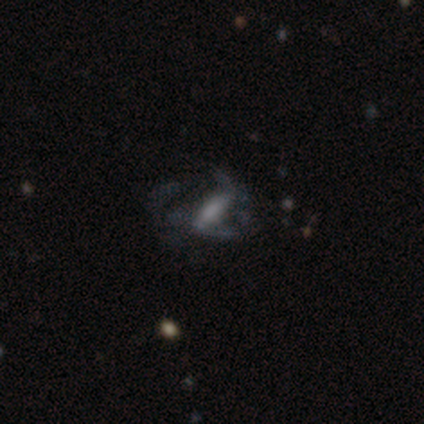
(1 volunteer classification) A featured or disk galaxy (100%) with a strong bar (100%), medium (100%) spiral arms (100%) and a small central bulge (100%). Merging: none (100%).